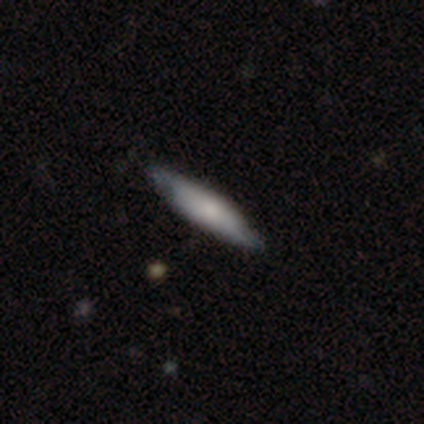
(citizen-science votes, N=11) Smooth or featured: smooth — 55% (featured or disk — 45%)
How rounded: cigar-shaped — 67% (in between — 33%)
Merging: none — 82% (minor disturbance — 18%)